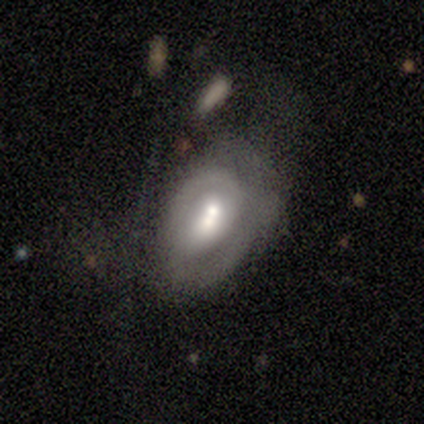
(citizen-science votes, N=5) Overall: featured or disk (80%). Edge-on disk: no (100%). Bar: no (50%; strong 25%). Spiral arms: yes (75%). Spiral arm count: 2 (67%; can't tell 33%). Spiral winding: tight (100%). Bulge size: moderate (75%). Merging: minor disturbance (60%; none 20%).